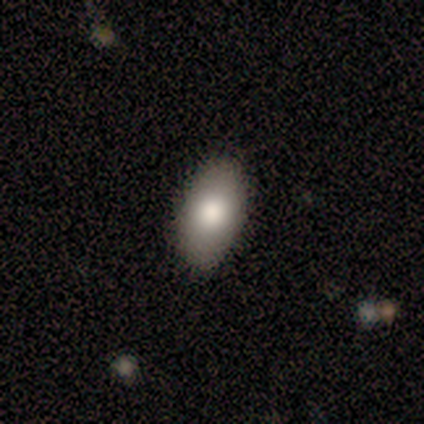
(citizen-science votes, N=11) This is likely a smooth galaxy (64%). How rounded: clearly in between (100%). Merging: clearly none (88%).